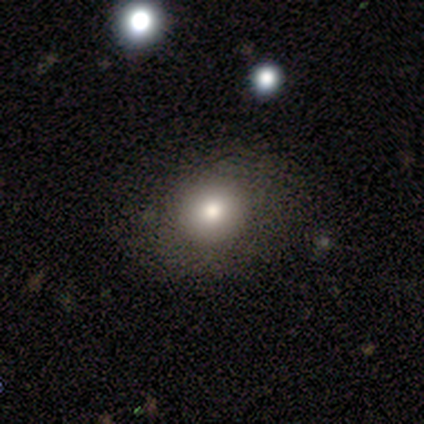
Smooth or featured?
  - smooth: 100% *
  - featured or disk: 0%
  - star or artifact: 0%
How rounded?
  - round: 100% *
  - in between: 0%
  - cigar-shaped: 0%
Merging?
  - none: 75% *
  - major disturbance: 25%
  - minor disturbance: 0%
  - merger: 0%